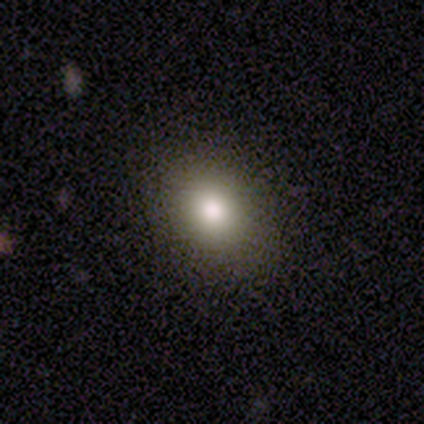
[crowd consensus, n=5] smooth-or-featured: smooth: 80% | featured or disk: 20% | star or artifact: 0%
  how-rounded: round: 50% (tied) | in between: 50% (tied) | cigar-shaped: 0%
  merging: none: 100% | minor disturbance: 0% | major disturbance: 0% | merger: 0%